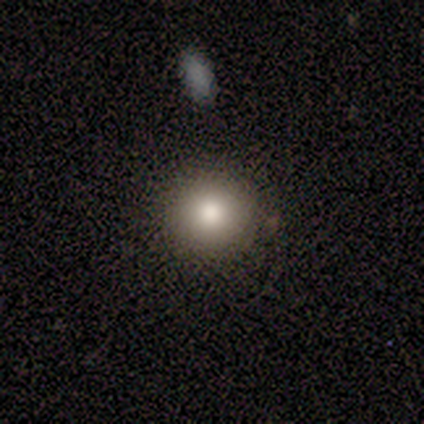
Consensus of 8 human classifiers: smooth-or-featured: smooth: 88% | featured or disk: 12% | star or artifact: 0%
  how-rounded: round: 86% | in between: 14% | cigar-shaped: 0%
  merging: none: 75% | minor disturbance: 25% | major disturbance: 0% | merger: 0%